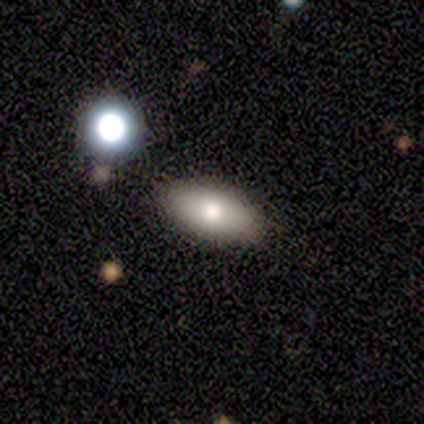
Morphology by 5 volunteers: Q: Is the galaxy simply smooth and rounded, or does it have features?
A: smooth — 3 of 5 (60%).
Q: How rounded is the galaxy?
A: in between — 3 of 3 (100%).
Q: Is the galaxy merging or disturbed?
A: none — 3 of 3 (100%).